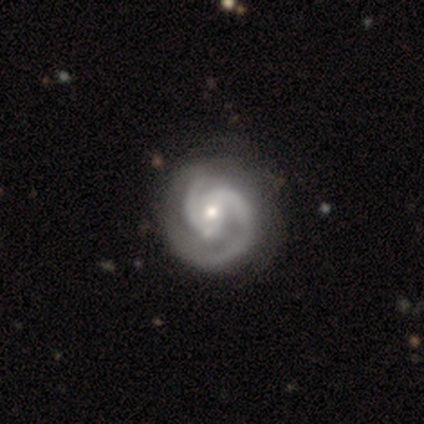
Smooth or featured: featured or disk — 93% (star or artifact — 5%)
Edge-on disk: no — 100%
Bar: weak — 50% (no — 35%)
Spiral arms: yes — 100%
Spiral winding: tight — 50% (medium — 35%)
Spiral arm count: 2 — 95% (1 — 2%)
Bulge size: moderate — 60% (small — 40%)
Merging: none — 61% (minor disturbance — 37%)